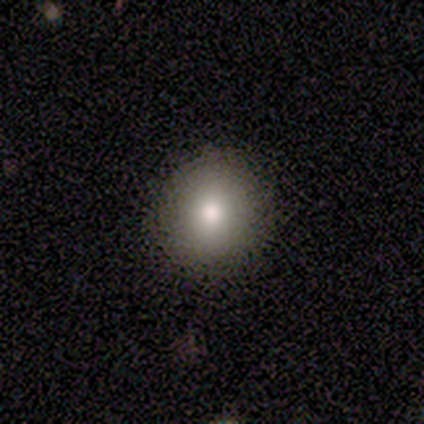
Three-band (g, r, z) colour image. It shows a smooth galaxy with no disk features (75%) that is round (100%). Merging: none (100%).